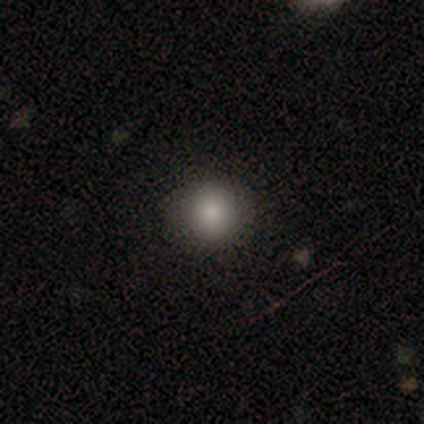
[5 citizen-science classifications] This is clearly a smooth galaxy (100%). How rounded: clearly round (100%). Merging: clearly none (80%).